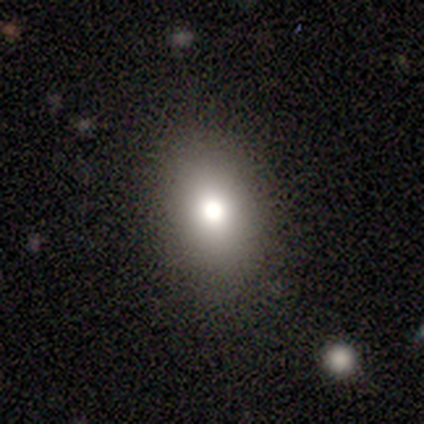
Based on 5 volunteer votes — Smooth or featured? 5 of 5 (100%) said smooth. How rounded? 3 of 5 (60%) said round. Merging? 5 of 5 (100%) said none.